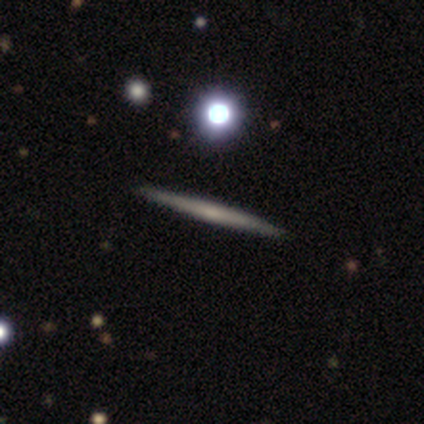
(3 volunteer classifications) smooth_or_featured: featured or disk (p=1.00)
disk_edge_on: yes (p=1.00)
edge_on_bulge: none (p=1.00)
merging: none (p=1.00)